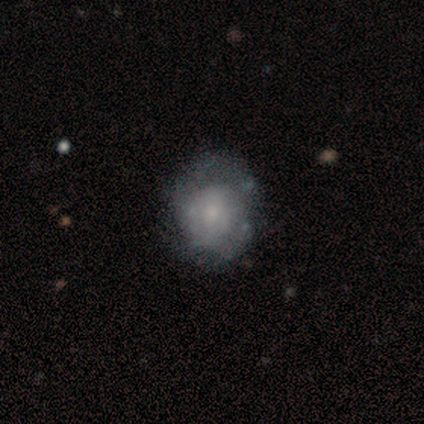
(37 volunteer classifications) Smooth or featured?
  - featured or disk: 73% *
  - smooth: 22%
  - star or artifact: 5%
Edge-on disk?
  - no: 100% *
  - yes: 0%
Bar?
  - no: 96% *
  - weak: 4%
  - strong: 0%
Spiral arms?
  - no: 56% *
  - yes: 44%
Bulge size?
  - small: 63% *
  - moderate: 26%
  - large: 7%
  - none: 4%
  - dominant: 0%
Merging?
  - none: 54% *
  - major disturbance: 9%
  - minor disturbance: 6%
  - merger: 6%